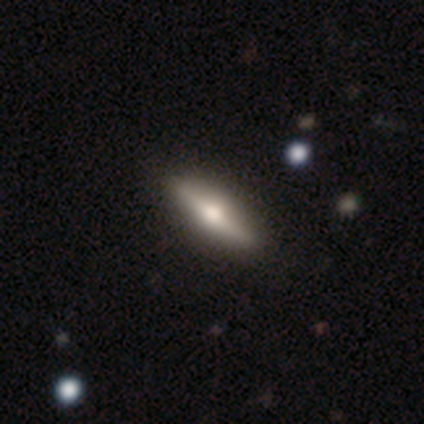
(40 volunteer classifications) This appears to be a featured or disk galaxy (60%) viewed edge-on (100%) with a rounded central bulge (92%). Merging: none (64%).